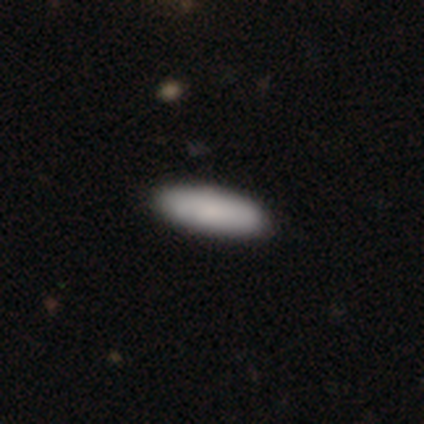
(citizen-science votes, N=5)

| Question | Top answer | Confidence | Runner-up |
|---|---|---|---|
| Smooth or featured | smooth | 60% | featured or disk (40%) |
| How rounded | cigar-shaped | 67% | in between (33%) |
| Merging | none | 100% | — |